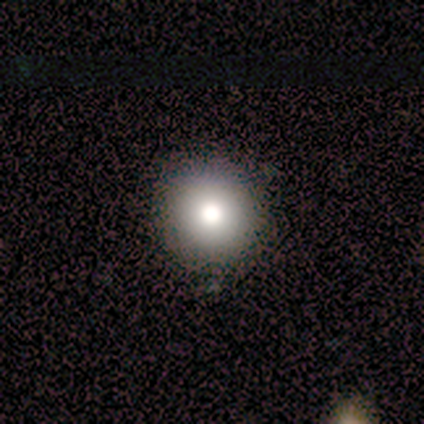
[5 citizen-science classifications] smooth 60%, featured or disk 20%, star or artifact 20%. Down the decision tree: how rounded — round (100%); merging — none (75%).